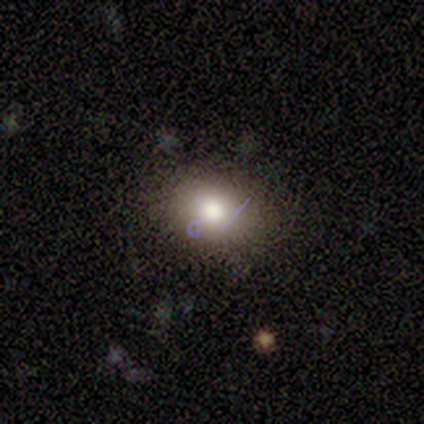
A smooth galaxy with no disk features (100%) that is in between round and cigar-shaped (60%). Merging: none (100%).